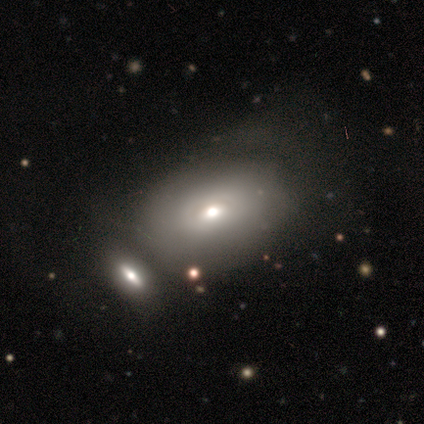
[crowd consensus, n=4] smooth_or_featured: smooth (p=0.50) [tied with: featured or disk p=0.50]
how_rounded: in between (p=1.00)
merging: none (p=0.50) [alt: major disturbance p=0.25]